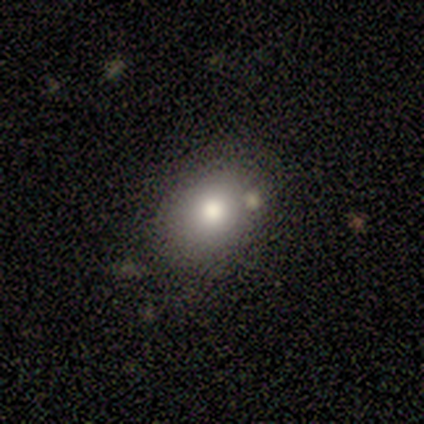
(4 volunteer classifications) Smooth or featured: smooth — 75% (featured or disk — 25%)
How rounded: in between — 67% (round — 33%)
Merging: none — 50% (minor disturbance — 25%)